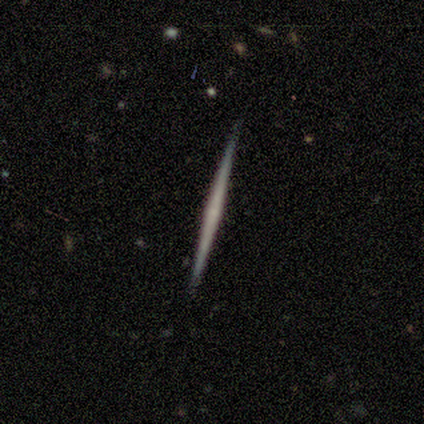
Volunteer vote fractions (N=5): Morphology: type=featured or disk (80%); edge-on=yes (100%); edge-on bulge=none (100%); merging=none (80%).